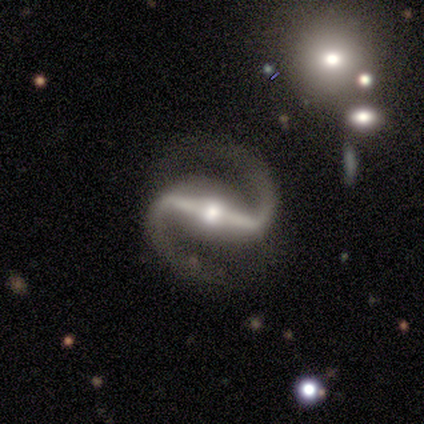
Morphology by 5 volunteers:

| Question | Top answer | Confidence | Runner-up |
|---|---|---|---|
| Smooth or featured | featured or disk | 100% | — |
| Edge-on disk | no | 100% | — |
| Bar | strong | 80% | weak (20%) |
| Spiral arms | yes | 100% | — |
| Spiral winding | loose | 60% | tight (20%) |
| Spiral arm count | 2 | 100% | — |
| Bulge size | moderate | 100% | — |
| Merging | none | 100% | — |